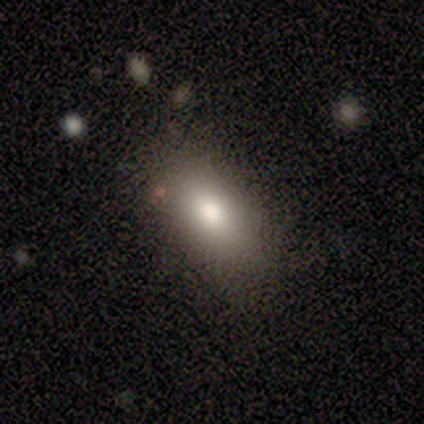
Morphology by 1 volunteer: A featured or disk galaxy (100%) with no bar (100%), no spiral arms (100%) and a large central bulge (100%).

Vote fractions:
- Smooth or featured? featured or disk: 100% / smooth: 0% / star or artifact: 0%
- Edge-on disk? no: 100% / yes: 0%
- Bar? no: 100% / strong: 0% / weak: 0%
- Spiral arms? no: 100% / yes: 0%
- Bulge size? large: 100% / dominant: 0% / moderate: 0% / small: 0% / none: 0%
- Merging? merger: 100% / none: 0% / minor disturbance: 0% / major disturbance: 0%